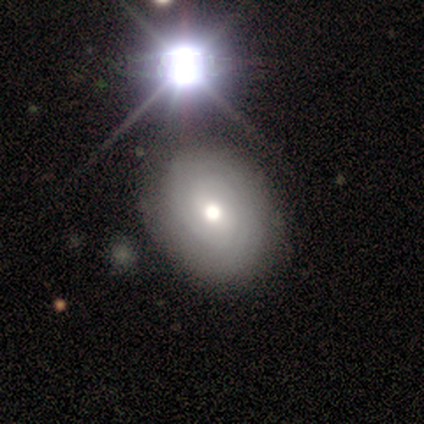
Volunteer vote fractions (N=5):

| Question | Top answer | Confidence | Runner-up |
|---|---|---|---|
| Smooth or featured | star or artifact | 60% | smooth (20%) |